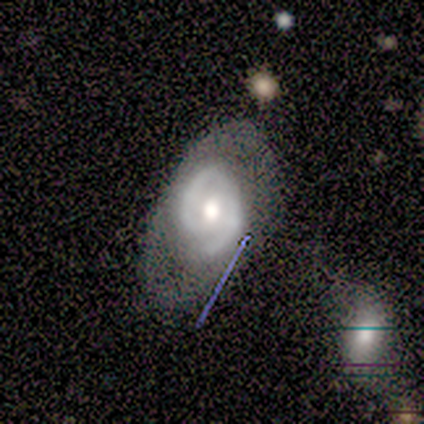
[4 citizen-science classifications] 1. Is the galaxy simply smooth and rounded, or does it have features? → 75% featured or disk, 25% smooth, 0% star or artifact.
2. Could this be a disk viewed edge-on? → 100% no, 0% yes.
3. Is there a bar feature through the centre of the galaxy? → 67% no, 33% weak, 0% strong.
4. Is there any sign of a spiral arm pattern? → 100% yes, 0% no.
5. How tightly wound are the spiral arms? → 100% tight, 0% medium, 0% loose.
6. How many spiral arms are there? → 100% 2, 0% 1, 0% 3, 0% 4, 0% more than 4, 0% can't tell.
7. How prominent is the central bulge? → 100% moderate, 0% dominant, 0% large, 0% small, 0% none.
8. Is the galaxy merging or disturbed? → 50% minor disturbance, 25% none, 25% major disturbance, 0% merger.